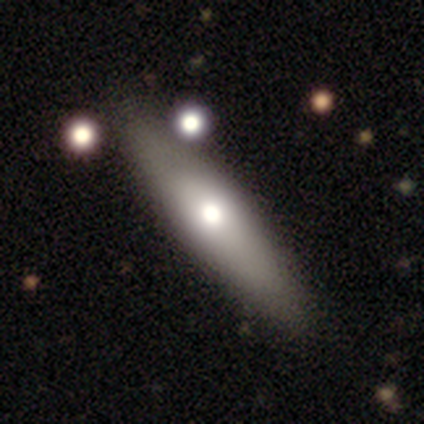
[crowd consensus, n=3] Smooth or featured? 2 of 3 (67%) said smooth. How rounded? 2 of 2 (100%) said cigar-shaped. Merging? 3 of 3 (100%) said none.